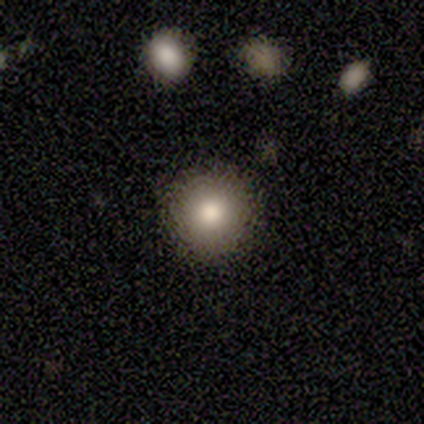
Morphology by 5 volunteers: Smooth or featured?
  - smooth: 80% *
  - featured or disk: 20%
  - star or artifact: 0%
How rounded?
  - round: 100% *
  - in between: 0%
  - cigar-shaped: 0%
Merging?
  - none: 100% *
  - minor disturbance: 0%
  - major disturbance: 0%
  - merger: 0%